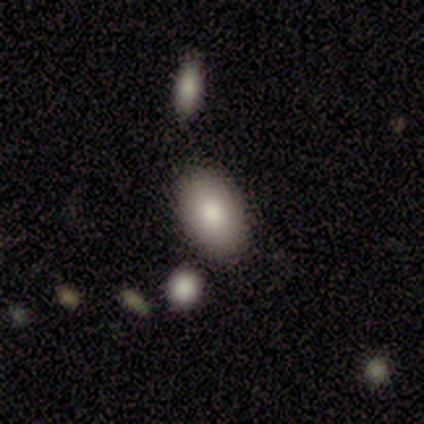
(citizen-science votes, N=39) smooth-or-featured: smooth: 79% | featured or disk: 10% | star or artifact: 10%
  how-rounded: in between: 100% | round: 0% | cigar-shaped: 0%
  merging: none: 83% | minor disturbance: 11% | major disturbance: 3% | merger: 3%